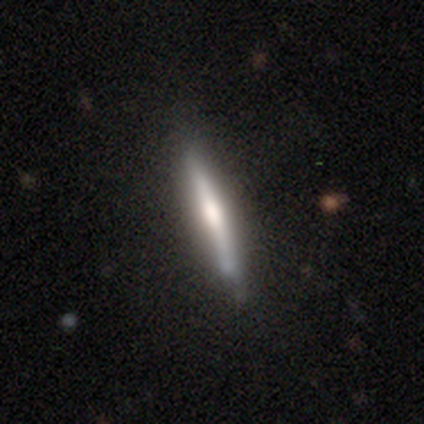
Smooth or featured? featured or disk (64%)
Edge-on disk? yes (98%)
Edge-on bulge? rounded (44%)
Merging? none (75%)